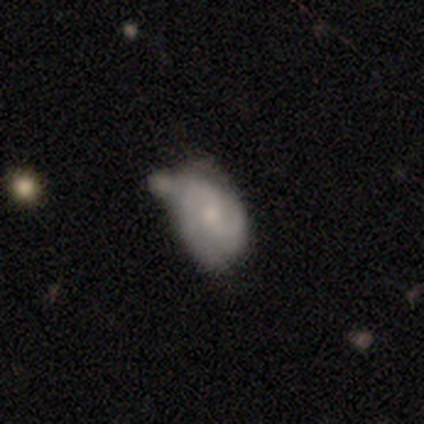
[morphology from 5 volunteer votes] Smooth or featured? featured or disk (100%)
Edge-on disk? no (100%)
Bar? weak (80%)
Spiral arms? yes (100%)
Spiral winding? loose (60%)
Spiral arm count? 2 (80%)
Bulge size? small (60%)
Merging? none (40%, tied with minor disturbance)